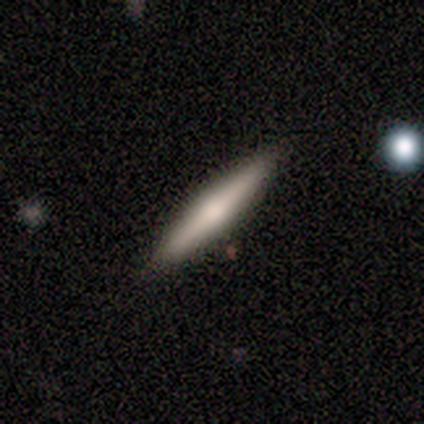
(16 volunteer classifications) A featured or disk galaxy (75%) viewed edge-on (100%) with a rounded central bulge (83%).

Vote fractions:
- Smooth or featured? featured or disk: 75% / smooth: 19% / star or artifact: 6%
- Edge-on disk? yes: 100% / no: 0%
- Edge-on bulge? rounded: 83% / boxy: 8% / none: 8%
- Merging? none: 87% / minor disturbance: 13% / major disturbance: 0% / merger: 0%